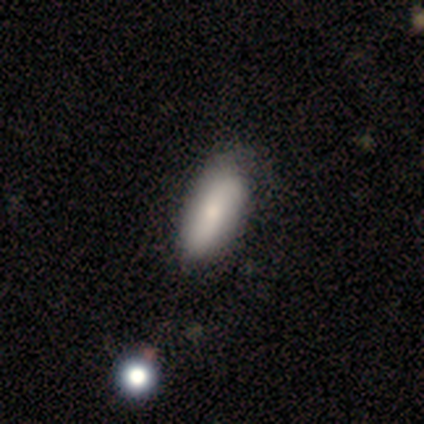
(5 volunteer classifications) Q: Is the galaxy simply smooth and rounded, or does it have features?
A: smooth — 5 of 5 (100%).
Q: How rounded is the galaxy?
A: in between — 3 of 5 (60%).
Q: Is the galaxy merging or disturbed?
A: none — 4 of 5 (80%).